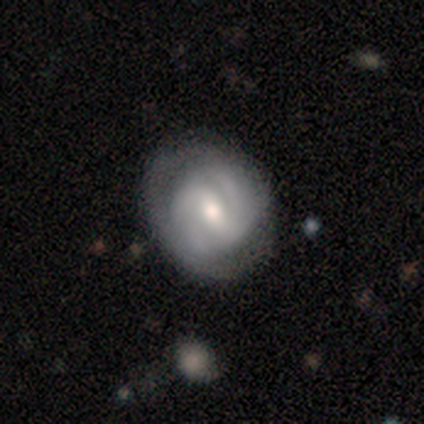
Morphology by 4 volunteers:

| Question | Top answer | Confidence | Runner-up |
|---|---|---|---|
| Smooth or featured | smooth | 50% | tied: featured or disk (50%) |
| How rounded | round | 50% | tied: in between (50%) |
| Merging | none | 100% | — |